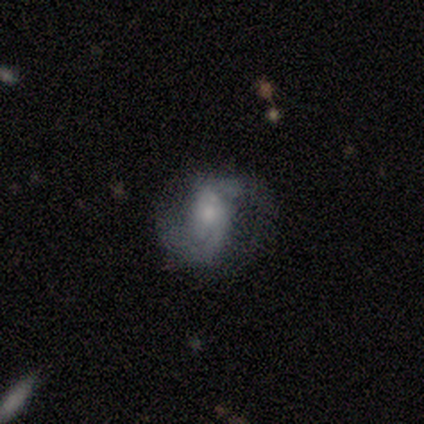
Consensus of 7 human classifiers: This appears to be a featured or disk galaxy (86%) with no bar (83%), 2 (83%) loose (50%) spiral arms (100%) and a moderate central bulge (67%). Merging: none (71%).